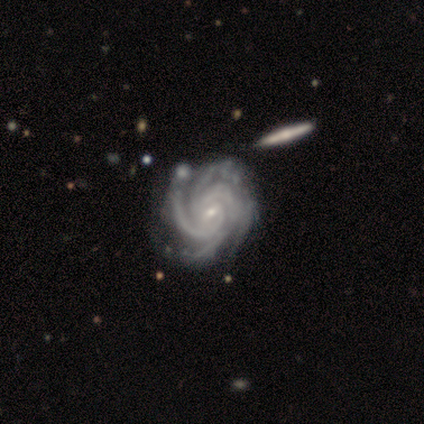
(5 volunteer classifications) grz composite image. It shows a featured or disk galaxy (80%) with a weak bar (75%), 4 (75%) tight (50%, tied with medium) spiral arms (100%) and a moderate central bulge (50%, tied with small). Merging: merger (50%).